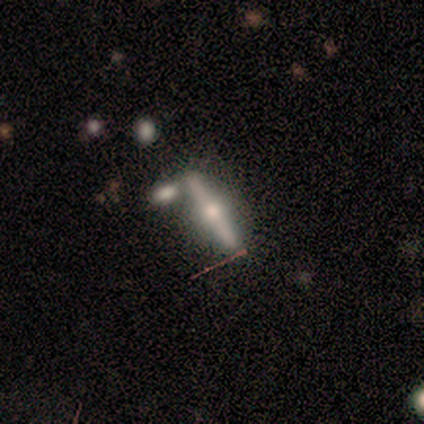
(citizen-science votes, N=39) featured or disk 82%, smooth 15%, star or artifact 3%. Down the decision tree: edge-on disk — yes (97%); edge-on bulge — rounded (94%); merging — none (66%).